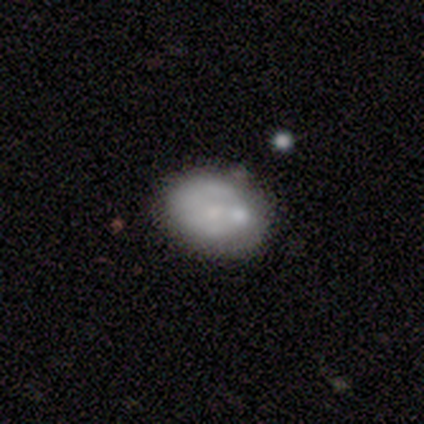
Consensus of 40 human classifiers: Overall: featured or disk (68%; smooth 30%). Edge-on disk: no (100%). Bar: no (89%). Spiral arms: no (96%). Bulge size: small (56%; moderate 26%). Merging: none (72%).